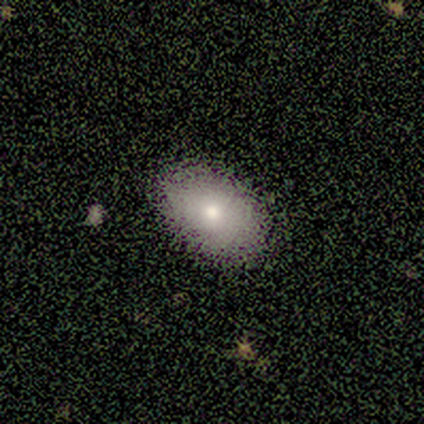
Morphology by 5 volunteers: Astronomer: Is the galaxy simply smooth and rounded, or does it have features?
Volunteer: smooth — 80%.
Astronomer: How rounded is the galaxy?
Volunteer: in between — 100%.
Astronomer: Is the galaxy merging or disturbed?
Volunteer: none — 80%.